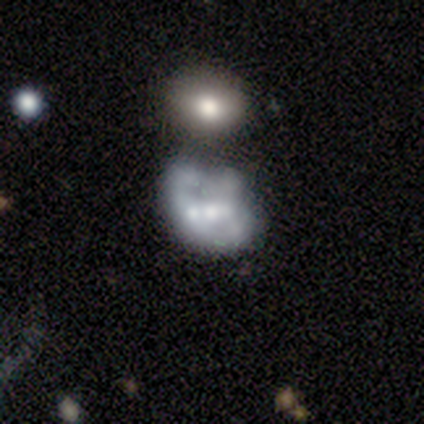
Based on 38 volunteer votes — Q: Smooth or featured?
A: featured or disk (58%); runner-up: smooth (34%)
Q: Edge-on disk?
A: no (100%)
Q: Bar?
A: no (68%); runner-up: weak (27%)
Q: Spiral arms?
A: no (77%); runner-up: yes (23%)
Q: Bulge size?
A: moderate (50%); runner-up: small (23%)
Q: Merging?
A: merger (51%); runner-up: none (26%)